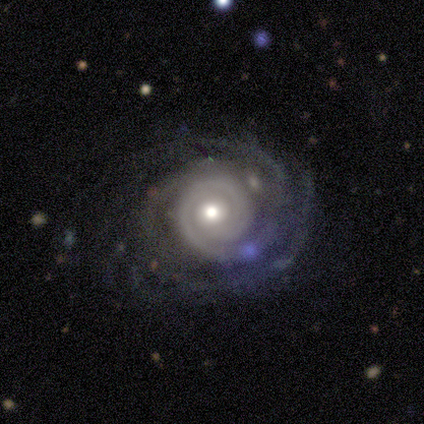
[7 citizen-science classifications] Smooth or featured? 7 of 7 (100%) said featured or disk. Edge-on disk? 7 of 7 (100%) said no. Bar? 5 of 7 (71%) said no. Spiral arms? 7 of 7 (100%) said yes. Spiral winding? 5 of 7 (71%) said tight. Spiral arm count? 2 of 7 (29%, tied with 3) said 2. Bulge size? 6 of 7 (86%) said moderate. Merging? 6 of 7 (86%) said none.